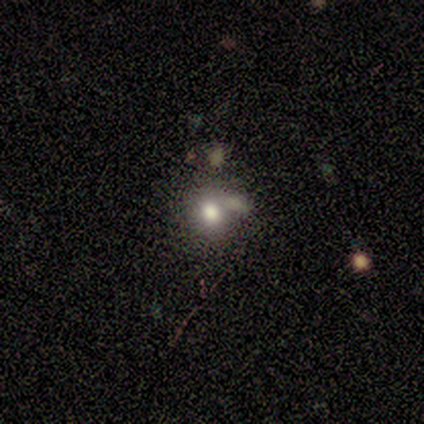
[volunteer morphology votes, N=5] Volunteers were most divided on "merging": none: 50%, major disturbance: 25%, merger: 25%, minor disturbance: 0%. More confident: how rounded — round (100%); smooth or featured — smooth (60%).